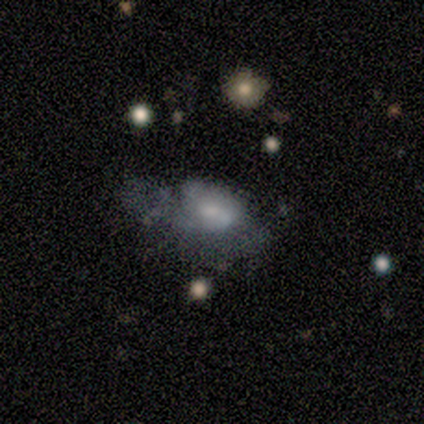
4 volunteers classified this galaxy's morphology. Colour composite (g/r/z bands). It shows a smooth galaxy with no disk features (50%, tied with featured or disk) that is in between round and cigar-shaped (100%). Merging: major disturbance (50%).